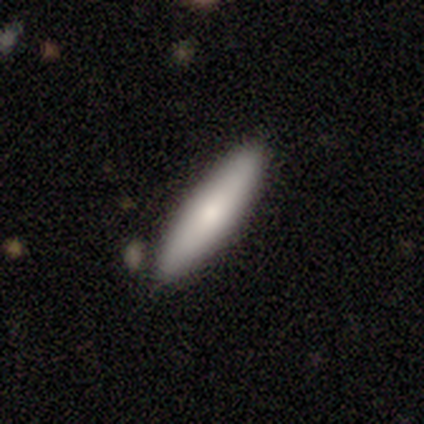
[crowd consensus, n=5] smooth 80%, featured or disk 20%, star or artifact 0%. Down the decision tree: how rounded — cigar-shaped (100%); merging — none (80%).